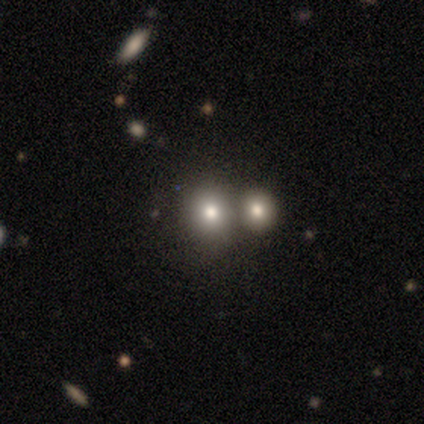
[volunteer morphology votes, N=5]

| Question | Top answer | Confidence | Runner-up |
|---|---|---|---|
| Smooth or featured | smooth | 80% | featured or disk (20%) |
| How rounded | round | 75% | in between (25%) |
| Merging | none | 60% | merger (40%) |